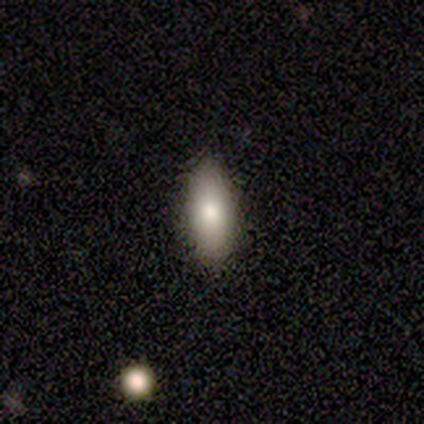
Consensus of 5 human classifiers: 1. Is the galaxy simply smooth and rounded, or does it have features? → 100% smooth, 0% featured or disk, 0% star or artifact.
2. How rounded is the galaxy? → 60% in between, 40% cigar-shaped, 0% round.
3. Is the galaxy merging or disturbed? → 80% none, 20% minor disturbance, 0% major disturbance, 0% merger.